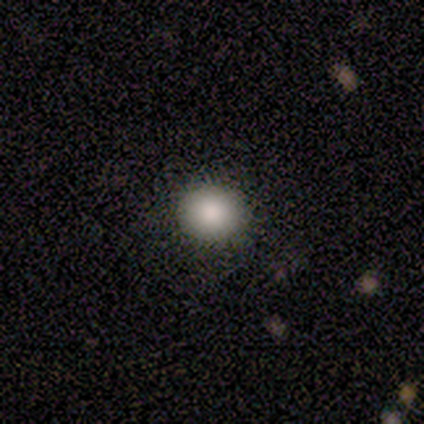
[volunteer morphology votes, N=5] Q: Smooth or featured?
A: smooth (80%); runner-up: featured or disk (20%)
Q: How rounded?
A: round (50%); tied with: in between (50%)
Q: Merging?
A: none (100%)